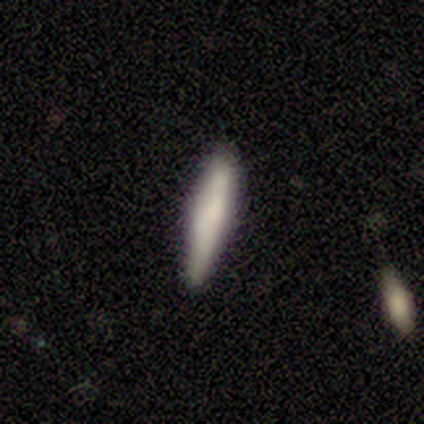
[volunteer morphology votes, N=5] Overall: smooth (100%). How rounded: cigar-shaped (100%). Merging: none (80%).